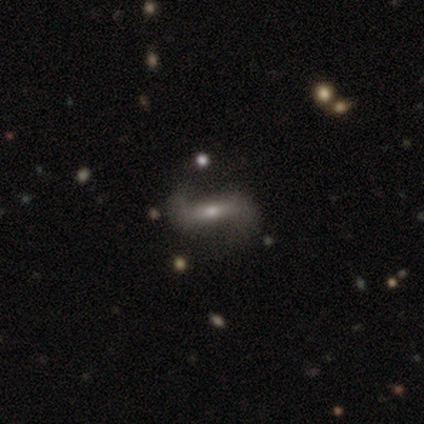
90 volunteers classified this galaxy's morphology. smooth_or_featured: featured or disk (p=0.78) [alt: smooth p=0.11]
disk_edge_on: no (p=0.87) [alt: yes p=0.13]
bar: strong (p=0.39) [alt: weak p=0.31]
has_spiral_arms: yes (p=0.87) [alt: no p=0.13]
spiral_winding: loose (p=0.74) [alt: medium p=0.25]
spiral_arm_count: 2 (p=0.92) [alt: 1 p=0.06]
bulge_size: small (p=0.51) [alt: moderate p=0.43]
merging: none (p=0.75) [alt: minor disturbance p=0.12]